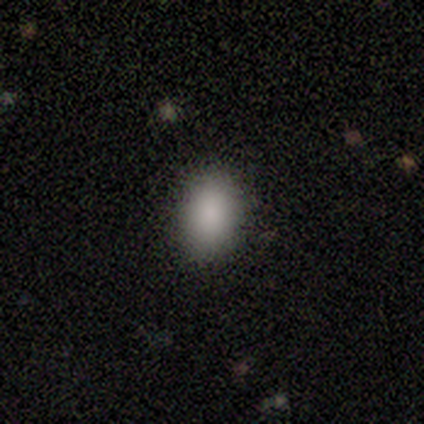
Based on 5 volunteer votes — Smooth or featured? smooth (100%)
How rounded? in between (100%)
Merging? none (60%)